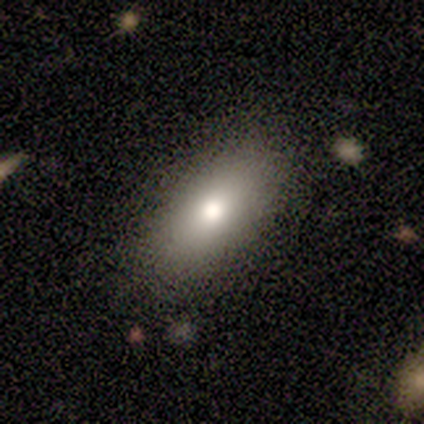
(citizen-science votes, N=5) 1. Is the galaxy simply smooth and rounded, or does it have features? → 60% smooth, 20% featured or disk, 20% star or artifact.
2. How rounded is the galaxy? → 100% in between, 0% round, 0% cigar-shaped.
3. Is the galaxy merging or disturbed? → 75% none, 25% minor disturbance, 0% major disturbance, 0% merger.